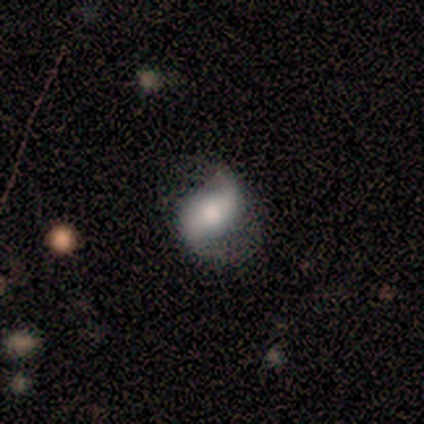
This is clearly a featured or disk galaxy (100%). It is clearly not viewed edge-on (100%). Bar: possibly weak (50%). Spiral arm pattern: clearly yes (100%). Spiral arm count: clearly 2 (100%). Spiral winding: possibly medium (50%, tied with loose). Central bulge: marginally dominant (25%, tied with large, moderate and none). Merging: clearly minor disturbance (100%).